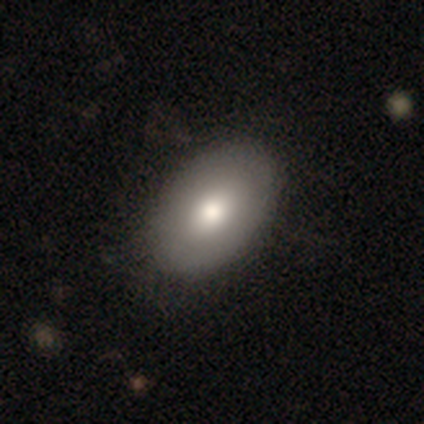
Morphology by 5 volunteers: A smooth galaxy with no disk features (60%) that is in between round and cigar-shaped (100%).

Vote fractions:
- Smooth or featured? smooth: 60% / featured or disk: 40% / star or artifact: 0%
- How rounded? in between: 100% / round: 0% / cigar-shaped: 0%
- Merging? none: 80% / minor disturbance: 20% / major disturbance: 0% / merger: 0%